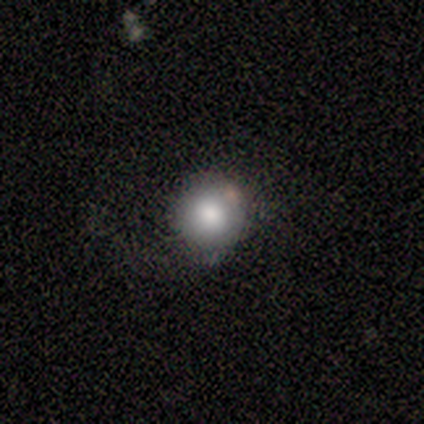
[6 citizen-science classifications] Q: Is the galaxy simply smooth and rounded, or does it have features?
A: smooth — 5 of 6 (83%).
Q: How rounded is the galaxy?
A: round — 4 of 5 (80%).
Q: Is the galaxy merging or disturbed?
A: none — 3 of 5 (60%).